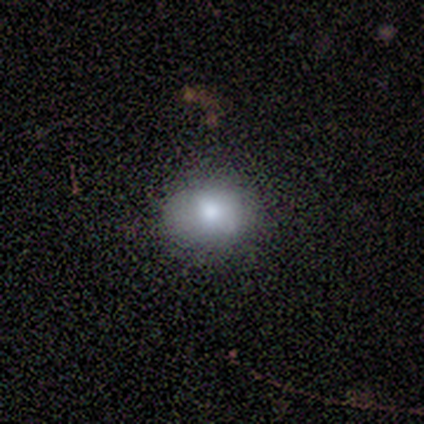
Volunteers were most divided on "smooth or featured" (2-way tie): smooth: 50%, star or artifact: 50%, featured or disk: 0%; "how rounded" (2-way tie): round: 50%, in between: 50%, cigar-shaped: 0%. More confident: merging — none (100%).